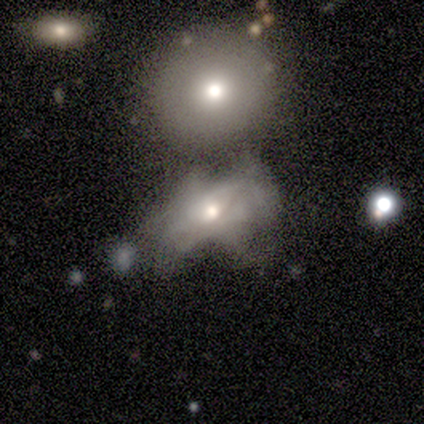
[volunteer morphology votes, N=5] type=featured or disk (60%); edge-on=no (100%); bar=no (100%); spiral arms=no (100%); bulge=moderate (100%); merging=merger (40%).